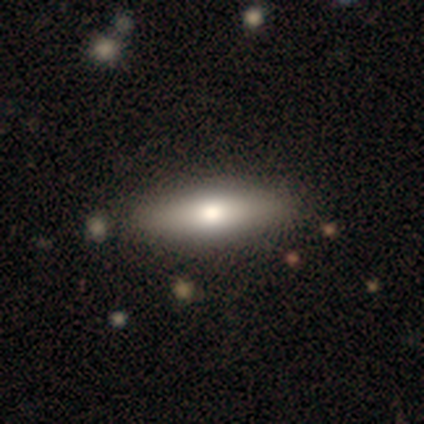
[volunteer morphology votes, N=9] Volunteers were most divided on "how rounded": cigar-shaped: 57%, in between: 43%, round: 0%. More confident: merging — none (100%); smooth or featured — smooth (78%).